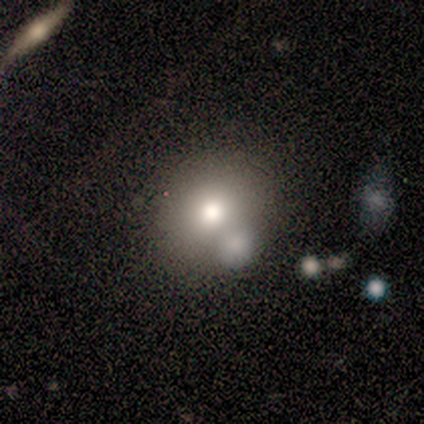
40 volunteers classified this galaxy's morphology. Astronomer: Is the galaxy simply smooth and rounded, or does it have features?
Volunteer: smooth — 70%.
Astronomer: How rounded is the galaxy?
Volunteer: round — 82%.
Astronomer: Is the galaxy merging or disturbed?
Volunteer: none — 57%.